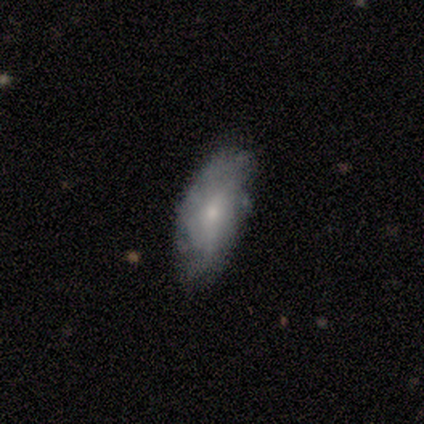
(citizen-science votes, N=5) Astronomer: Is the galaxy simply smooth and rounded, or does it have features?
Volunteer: featured or disk — 80%.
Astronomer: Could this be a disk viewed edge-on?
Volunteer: no — 100%.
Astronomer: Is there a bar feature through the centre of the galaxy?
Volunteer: no — 100%.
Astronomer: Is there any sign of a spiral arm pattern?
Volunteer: yes — 50%, tied with no at 50%.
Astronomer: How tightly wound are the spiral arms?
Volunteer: tight — 50%, tied with loose at 50%.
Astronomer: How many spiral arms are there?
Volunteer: can't tell — 100%.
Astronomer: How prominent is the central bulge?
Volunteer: small — 100%.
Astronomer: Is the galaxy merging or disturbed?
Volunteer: none — 60%.